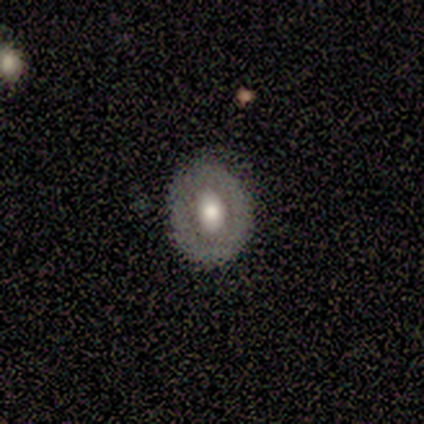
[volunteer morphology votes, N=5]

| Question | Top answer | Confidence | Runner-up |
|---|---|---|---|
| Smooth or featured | smooth | 40% | tied: featured or disk (40%) |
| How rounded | in between | 100% | — |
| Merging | none | 75% | minor disturbance (25%) |